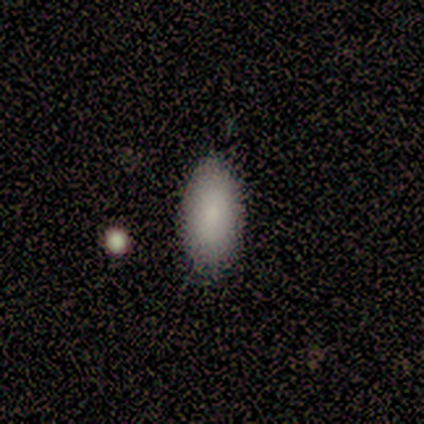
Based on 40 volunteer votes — smooth_or_featured: smooth (p=0.88) [alt: star or artifact p=0.07]
how_rounded: in between (p=0.97) [alt: cigar-shaped p=0.03]
merging: none (p=0.78) [alt: minor disturbance p=0.16]